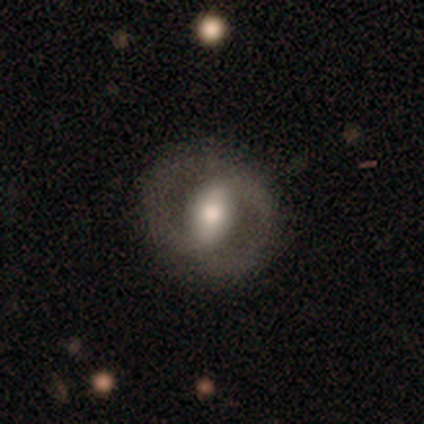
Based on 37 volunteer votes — Smooth or featured? featured or disk (62%)
Edge-on disk? no (100%)
Bar? strong (48%)
Spiral arms? no (61%)
Bulge size? moderate (52%)
Merging? none (79%)